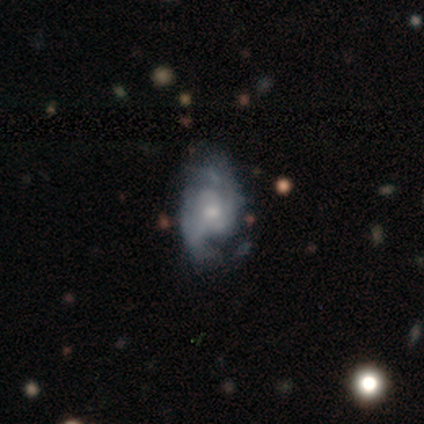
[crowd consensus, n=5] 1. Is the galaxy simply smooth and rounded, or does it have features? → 80% featured or disk, 20% smooth, 0% star or artifact.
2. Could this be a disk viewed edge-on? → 75% no, 25% yes.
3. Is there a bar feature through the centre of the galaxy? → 100% no, 0% strong, 0% weak.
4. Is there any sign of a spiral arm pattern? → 100% yes, 0% no.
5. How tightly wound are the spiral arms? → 67% loose, 33% medium, 0% tight.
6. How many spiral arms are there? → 67% can't tell, 33% 2, 0% 1, 0% 3, 0% 4, 0% more than 4.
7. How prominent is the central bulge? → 67% large, 33% small, 0% dominant, 0% moderate, 0% none.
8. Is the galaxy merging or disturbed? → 100% minor disturbance, 0% none, 0% major disturbance, 0% merger.